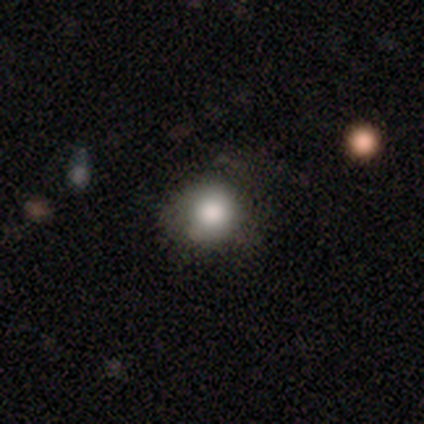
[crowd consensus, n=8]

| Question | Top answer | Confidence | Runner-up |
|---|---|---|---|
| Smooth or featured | smooth | 100% | — |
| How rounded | round | 100% | — |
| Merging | none | 62% | minor disturbance (25%) |